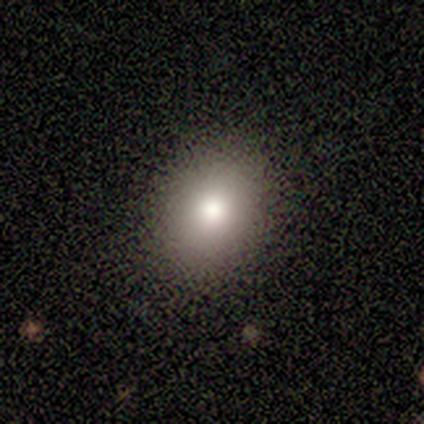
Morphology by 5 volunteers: Q: Smooth or featured?
A: smooth (80%); runner-up: featured or disk (20%)
Q: How rounded?
A: round (75%); runner-up: in between (25%)
Q: Merging?
A: none (100%)